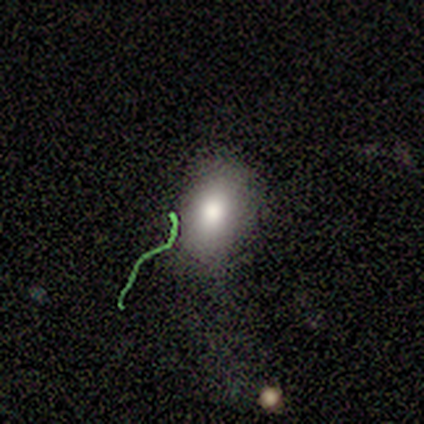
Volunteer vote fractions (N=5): star or artifact 60%, smooth 40%, featured or disk 0%.